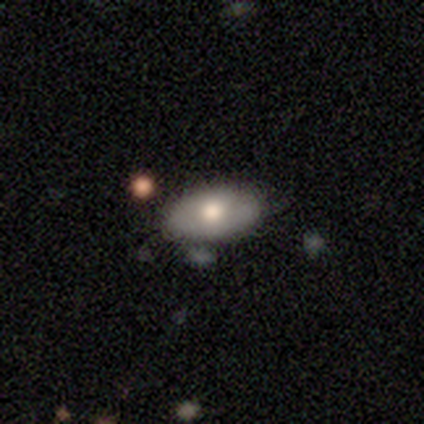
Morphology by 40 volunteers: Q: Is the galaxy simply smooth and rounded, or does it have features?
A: smooth — 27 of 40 (68%).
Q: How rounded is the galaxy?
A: in between — 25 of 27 (93%).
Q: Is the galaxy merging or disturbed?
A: none — 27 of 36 (75%).